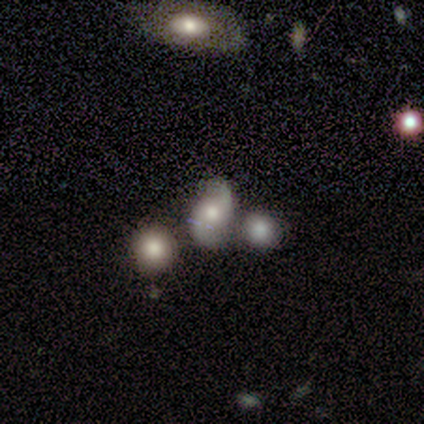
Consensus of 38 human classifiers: Smooth or featured?
  - featured or disk: 61% *
  - smooth: 32%
  - star or artifact: 8%
Edge-on disk?
  - no: 100% *
  - yes: 0%
Bar?
  - no: 78% *
  - weak: 13%
  - strong: 9%
Spiral arms?
  - yes: 87% *
  - no: 13%
Spiral winding?
  - loose: 75% *
  - medium: 25%
  - tight: 0%
Spiral arm count?
  - 2: 95% *
  - can't tell: 5%
  - 1: 0%
  - 3: 0%
  - 4: 0%
  - more than 4: 0%
Bulge size?
  - moderate: 74% *
  - small: 13%
  - large: 9%
  - none: 4%
  - dominant: 0%
Merging?
  - none: 37% * (tied)
  - merger: 37% * (tied)
  - minor disturbance: 23%
  - major disturbance: 3%